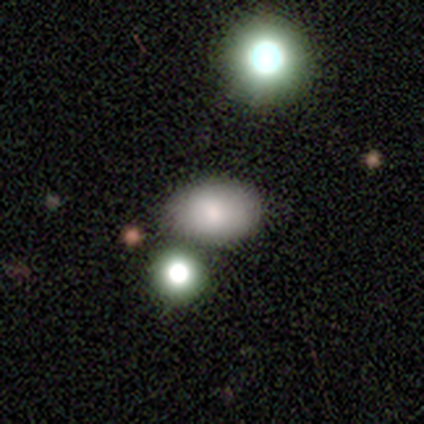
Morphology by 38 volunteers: This appears to be a smooth galaxy with no disk features (82%) that is in between round and cigar-shaped (71%). Merging: none (71%).